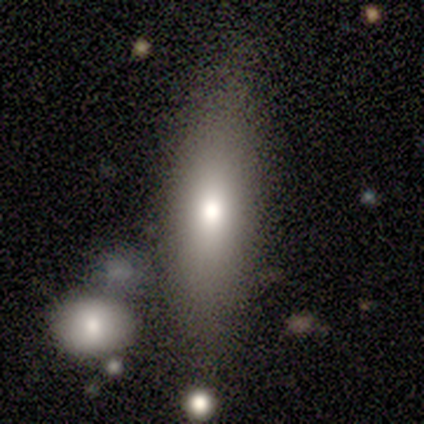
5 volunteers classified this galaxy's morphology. smooth_or_featured: smooth (p=0.80) [alt: star or artifact p=0.20]
how_rounded: in between (p=0.75) [alt: round p=0.25]
merging: none (p=0.50) [alt: minor disturbance p=0.25]